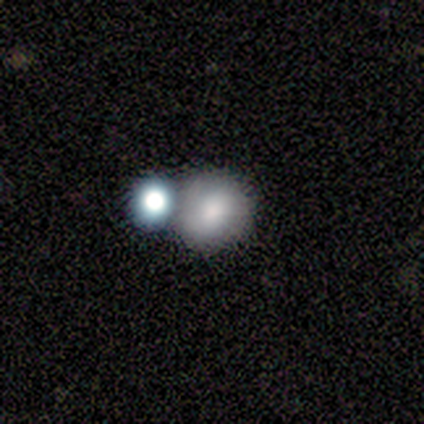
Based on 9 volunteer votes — Smooth or featured? smooth (56%)
How rounded? round (100%)
Merging? none (71%)